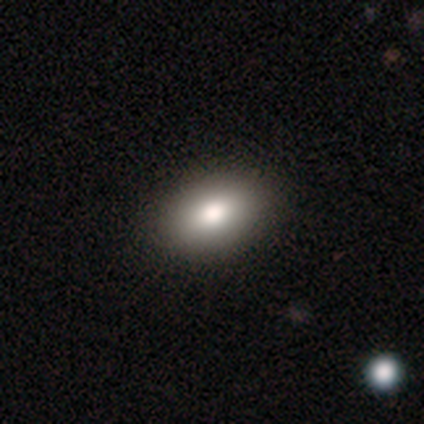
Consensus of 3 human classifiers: Smooth or featured?
  - smooth: 100% *
  - featured or disk: 0%
  - star or artifact: 0%
How rounded?
  - in between: 100% *
  - round: 0%
  - cigar-shaped: 0%
Merging?
  - none: 100% *
  - minor disturbance: 0%
  - major disturbance: 0%
  - merger: 0%